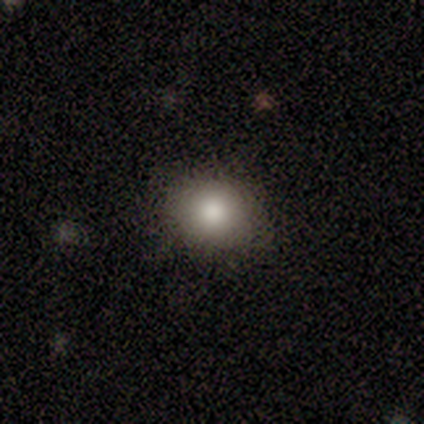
Smooth or featured: smooth — 75% (featured or disk — 25%)
How rounded: round — 67% (in between — 33%)
Merging: none — 100%